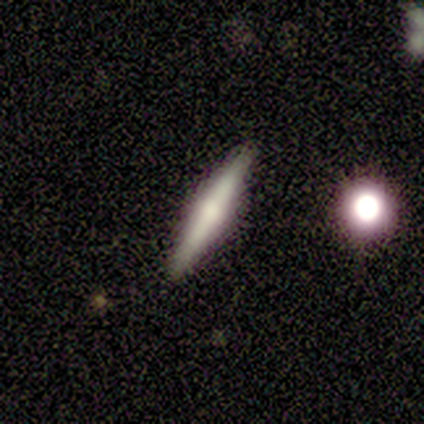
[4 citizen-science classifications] Smooth or featured? featured or disk (100%)
Edge-on disk? yes (100%)
Edge-on bulge? rounded (75%)
Merging? none (100%)